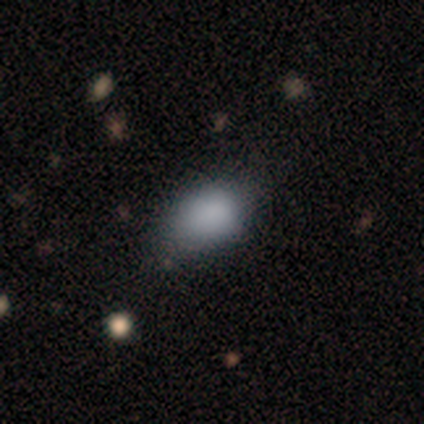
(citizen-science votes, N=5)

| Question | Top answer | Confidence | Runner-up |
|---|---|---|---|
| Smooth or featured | smooth | 80% | star or artifact (20%) |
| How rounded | in between | 100% | — |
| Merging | none | 100% | — |